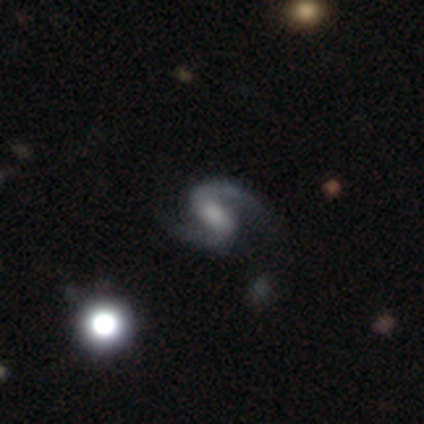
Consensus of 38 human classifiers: Smooth or featured?
  - featured or disk: 84% *
  - star or artifact: 11%
  - smooth: 5%
Edge-on disk?
  - no: 100% *
  - yes: 0%
Bar?
  - weak: 50% *
  - strong: 31%
  - no: 19%
Spiral arms?
  - yes: 100% *
  - no: 0%
Spiral winding?
  - medium: 66% *
  - loose: 31%
  - tight: 3%
Spiral arm count?
  - 2: 97% *
  - 1: 3%
  - 3: 0%
  - 4: 0%
  - more than 4: 0%
  - can't tell: 0%
Bulge size?
  - moderate: 31% * (tied)
  - none: 31% * (tied)
  - small: 25%
  - large: 9%
  - dominant: 3%
Merging?
  - none: 79% *
  - minor disturbance: 9%
  - major disturbance: 6%
  - merger: 6%